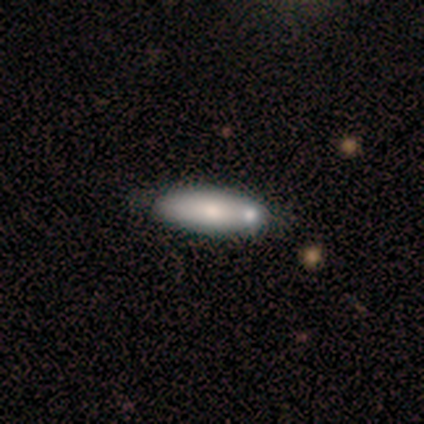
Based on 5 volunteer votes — Q: Smooth or featured?
A: smooth (80%); runner-up: featured or disk (20%)
Q: How rounded?
A: in between (50%); tied with: cigar-shaped (50%)
Q: Merging?
A: none (100%)